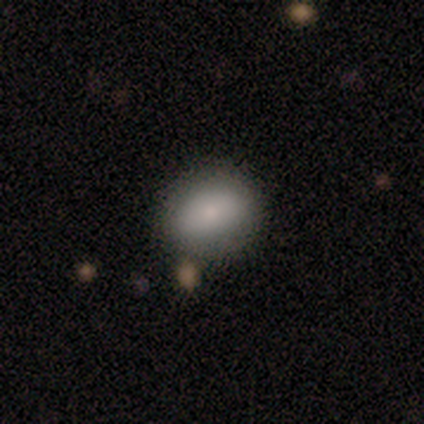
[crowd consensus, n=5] smooth_or_featured: smooth (p=0.60) [alt: featured or disk p=0.40]
how_rounded: in between (p=1.00)
merging: none (p=0.60) [alt: major disturbance p=0.20]